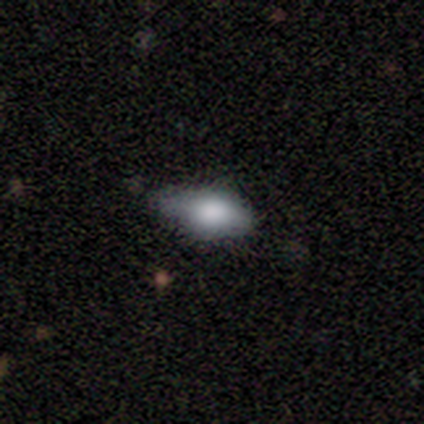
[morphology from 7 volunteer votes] smooth 86%, featured or disk 14%, star or artifact 0%. Down the decision tree: how rounded — in between (83%); merging — minor disturbance (57%).